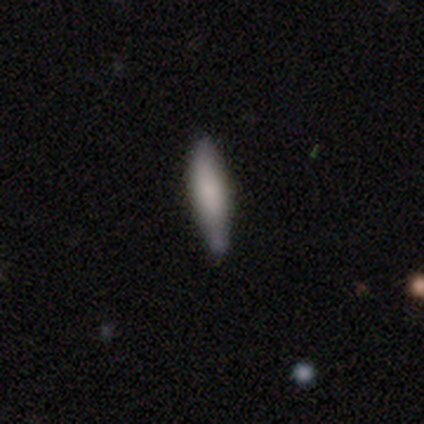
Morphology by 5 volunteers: A smooth galaxy with no disk features (80%) that is cigar-shaped (100%). Merging: none (100%).